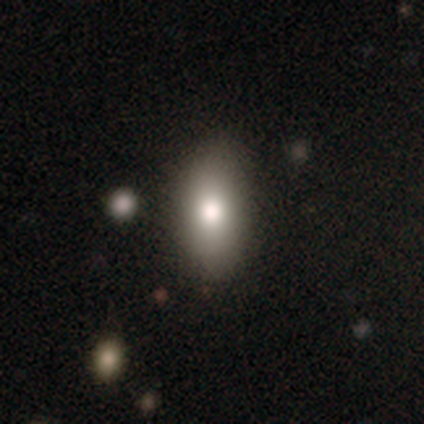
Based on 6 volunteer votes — Morphology: type=smooth (83%); roundness=in between (100%); merging=none (67%).